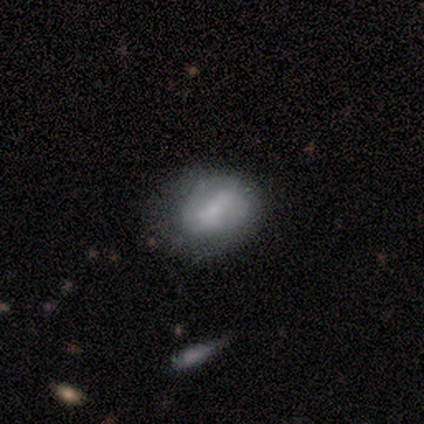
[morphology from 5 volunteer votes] smooth_or_featured: smooth (p=0.60) [alt: featured or disk p=0.40]
how_rounded: round (p=0.67) [alt: in between p=0.33]
merging: none (p=0.80) [alt: major disturbance p=0.20]